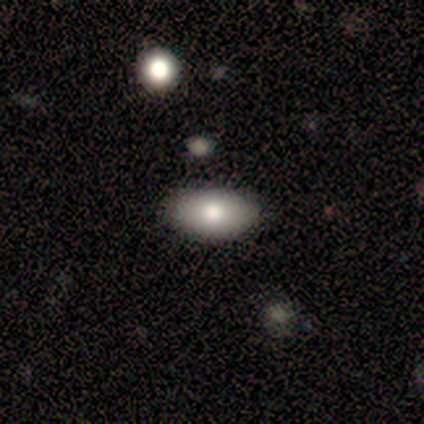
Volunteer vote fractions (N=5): This is clearly a smooth galaxy (80%). How rounded: clearly in between (100%). Merging: clearly none (80%).